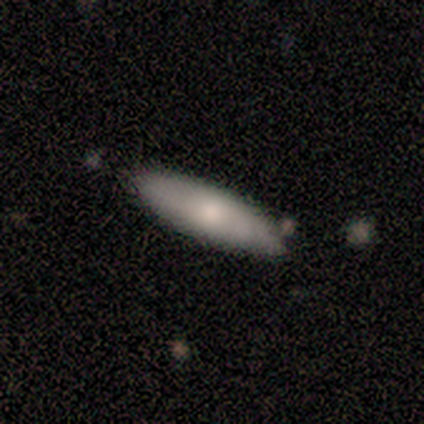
A smooth galaxy with no disk features (100%) that is cigar-shaped (60%). Merging: none (80%).